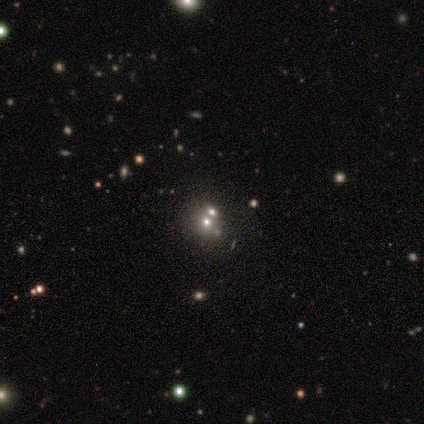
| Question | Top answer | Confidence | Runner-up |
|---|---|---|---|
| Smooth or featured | smooth | 50% | tied: featured or disk (50%) |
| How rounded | round | 50% | tied: in between (50%) |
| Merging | merger | 75% | none (25%) |